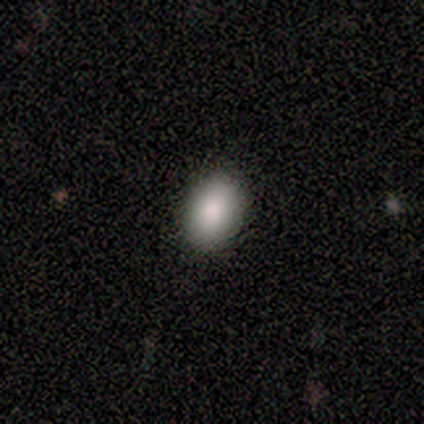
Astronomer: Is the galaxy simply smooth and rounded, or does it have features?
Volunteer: smooth — 92%.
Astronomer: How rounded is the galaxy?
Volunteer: in between — 100%.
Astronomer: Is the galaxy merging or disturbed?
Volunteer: none — 100%.